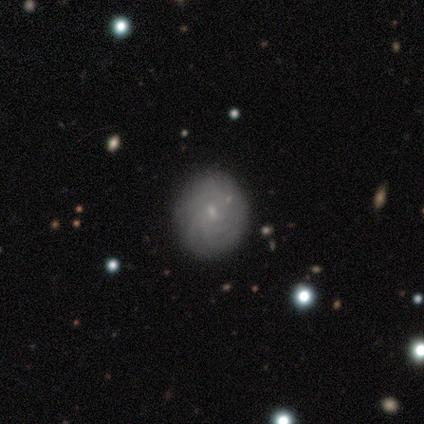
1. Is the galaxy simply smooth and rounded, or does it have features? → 60% featured or disk, 40% smooth, 0% star or artifact.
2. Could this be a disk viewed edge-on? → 100% no, 0% yes.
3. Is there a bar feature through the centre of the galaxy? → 100% no, 0% strong, 0% weak.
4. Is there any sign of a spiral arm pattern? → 67% yes, 33% no.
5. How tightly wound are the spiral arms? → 100% tight, 0% medium, 0% loose.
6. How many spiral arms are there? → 50% 4 (tied), 50% more than 4 (tied), 0% 1, 0% 2, 0% 3, 0% can't tell.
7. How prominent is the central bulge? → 100% small, 0% dominant, 0% large, 0% moderate, 0% none.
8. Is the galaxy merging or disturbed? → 60% none, 40% major disturbance, 0% minor disturbance, 0% merger.